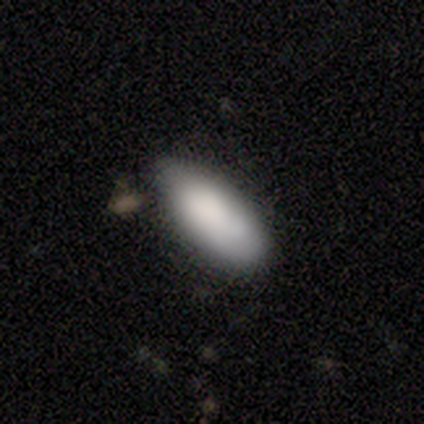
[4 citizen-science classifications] Overall: smooth (75%). How rounded: in between (100%). Merging: none (100%).